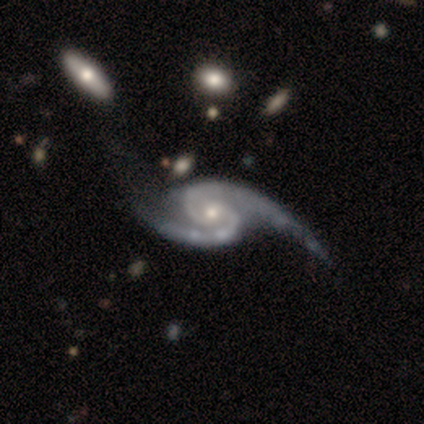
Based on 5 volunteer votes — Overall: featured or disk (100%). Edge-on disk: no (100%). Bar: no (60%; weak 40%). Spiral arms: yes (100%). Spiral arm count: 2 (100%). Spiral winding: loose (60%; medium 40%). Bulge size: moderate (80%). Merging: minor disturbance (40%; none 20%).